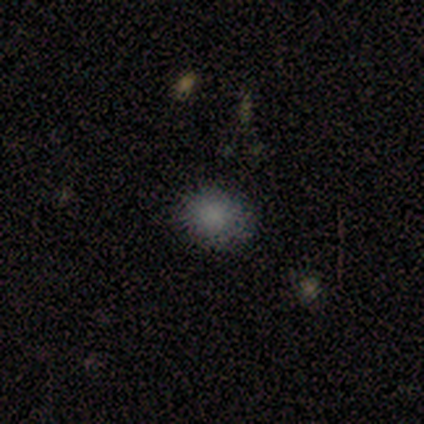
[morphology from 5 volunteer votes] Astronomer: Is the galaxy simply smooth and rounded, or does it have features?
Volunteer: smooth — 80%.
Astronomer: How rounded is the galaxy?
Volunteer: round — 50%, tied with in between at 50%.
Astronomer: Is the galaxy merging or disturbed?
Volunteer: none — 75%.